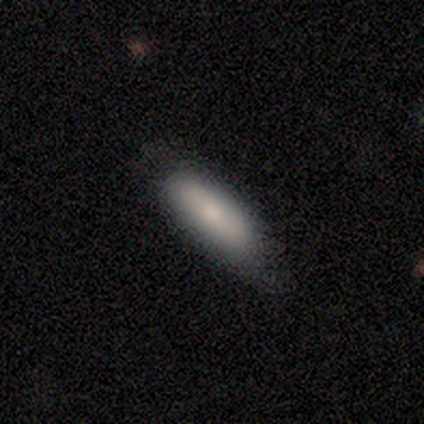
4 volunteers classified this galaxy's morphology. Smooth or featured: smooth — 75% (star or artifact — 25%)
How rounded: cigar-shaped — 67% (in between — 33%)
Merging: none — 100%